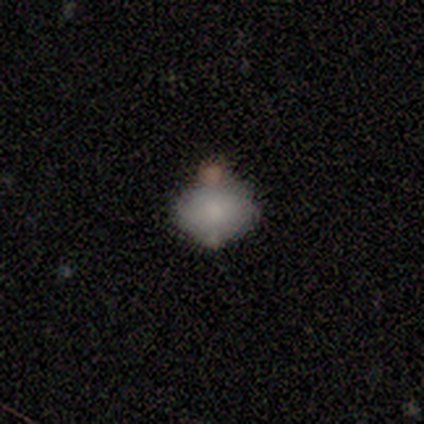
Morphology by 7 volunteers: smooth-or-featured: smooth: 86% | featured or disk: 14% | star or artifact: 0%
  how-rounded: round: 50% (tied) | in between: 50% (tied) | cigar-shaped: 0%
  merging: none: 57% | merger: 29% | minor disturbance: 14% | major disturbance: 0%